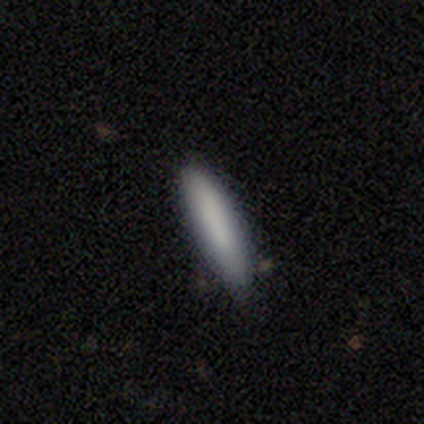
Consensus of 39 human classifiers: Smooth or featured: smooth — 92% (featured or disk — 5%)
How rounded: cigar-shaped — 83% (in between — 17%)
Merging: none — 87% (minor disturbance — 13%)